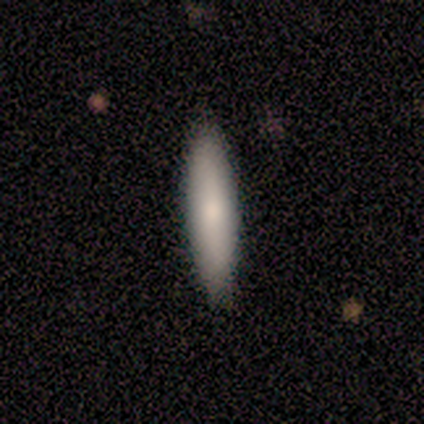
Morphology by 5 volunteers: smooth_or_featured: smooth (p=0.80) [alt: featured or disk p=0.20]
how_rounded: cigar-shaped (p=1.00)
merging: none (p=0.80) [alt: minor disturbance p=0.20]